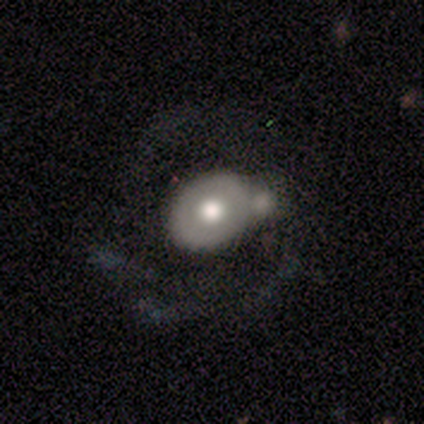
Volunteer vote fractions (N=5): A featured or disk galaxy (60%) with no bar (100%), 2 (100%) tight (100%) spiral arms (50%, tied with no) and a large central bulge (50%, tied with moderate). Merging: none (60%).